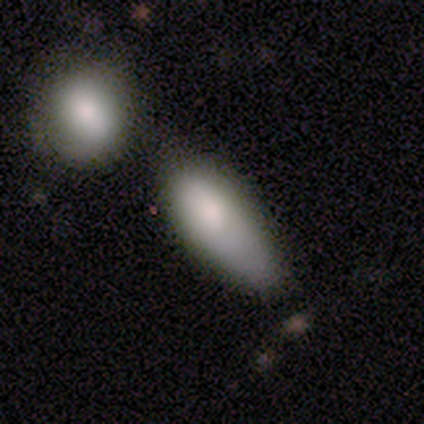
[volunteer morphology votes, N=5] Smooth or featured? smooth (100%)
How rounded? in between (60%)
Merging? minor disturbance (40%, tied with major disturbance)